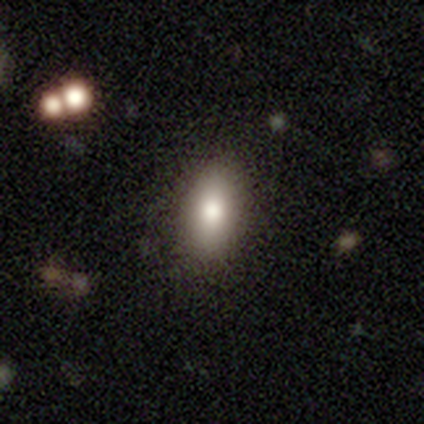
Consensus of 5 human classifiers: Smooth or featured: smooth — 100%
How rounded: in between — 100%
Merging: none — 80% (minor disturbance — 20%)